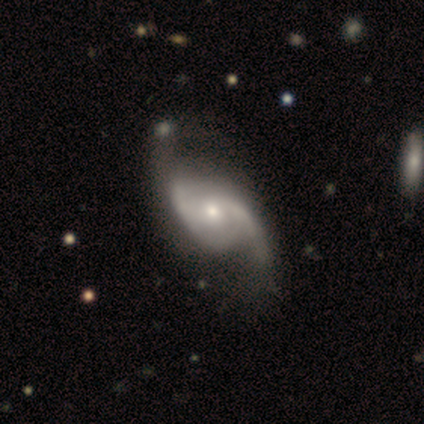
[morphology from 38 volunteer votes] This is clearly a featured or disk galaxy (87%). It is clearly not viewed edge-on (100%). Bar: likely no (64%). Spiral arm pattern: clearly yes (100%). Spiral arm count: clearly 2 (91%). Spiral winding: possibly loose (58%). Central bulge: possibly small (52%). Merging: marginally none (27%, tied with minor disturbance).